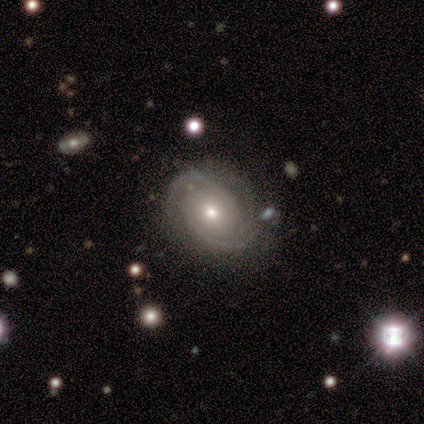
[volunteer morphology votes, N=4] smooth_or_featured: featured or disk (p=1.00)
disk_edge_on: no (p=1.00)
bar: no (p=0.75) [alt: strong p=0.25]
has_spiral_arms: yes (p=1.00)
spiral_winding: tight (p=1.00)
spiral_arm_count: 2 (p=1.00)
bulge_size: moderate (p=0.75) [alt: small p=0.25]
merging: none (p=0.75) [alt: minor disturbance p=0.25]